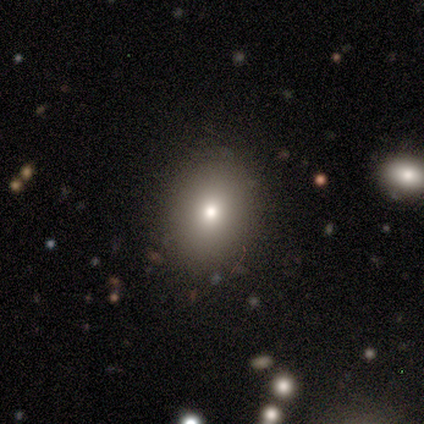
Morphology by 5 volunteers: This is likely a smooth galaxy (60%). How rounded: likely round (67%). Merging: clearly none (100%).